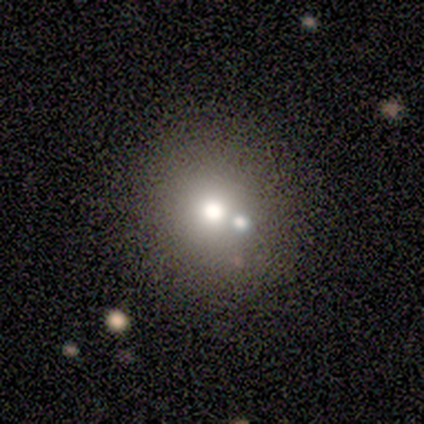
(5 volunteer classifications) smooth-or-featured: smooth: 100% | featured or disk: 0% | star or artifact: 0%
  how-rounded: round: 80% | in between: 20% | cigar-shaped: 0%
  merging: none: 80% | merger: 20% | minor disturbance: 0% | major disturbance: 0%